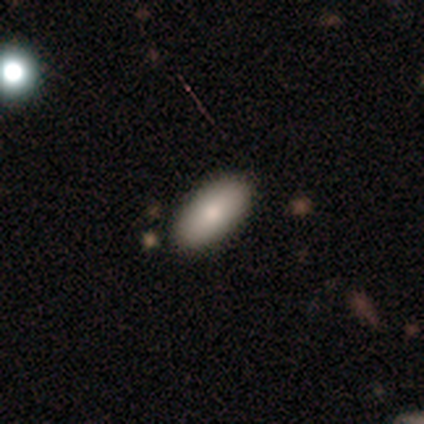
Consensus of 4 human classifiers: smooth 75%, featured or disk 25%, star or artifact 0%. Down the decision tree: how rounded — in between (100%); merging — none (75%).